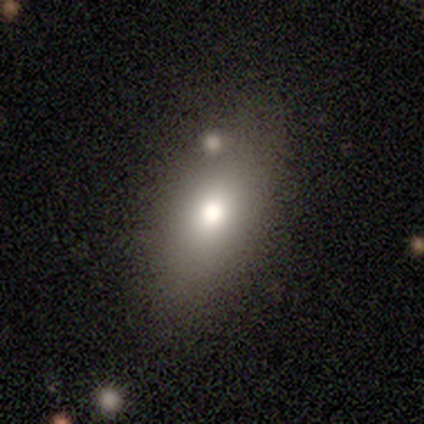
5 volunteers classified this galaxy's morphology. Smooth or featured?
  - smooth: 100% *
  - featured or disk: 0%
  - star or artifact: 0%
How rounded?
  - in between: 80% *
  - cigar-shaped: 20%
  - round: 0%
Merging?
  - none: 80% *
  - minor disturbance: 20%
  - major disturbance: 0%
  - merger: 0%